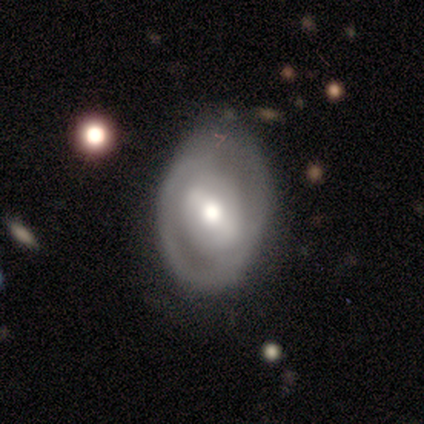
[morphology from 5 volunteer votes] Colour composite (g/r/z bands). It shows a featured or disk galaxy (80%) with a weak bar (50%), 2 (50%, tied with can't tell) tight (50%, tied with loose) spiral arms (50%, tied with no) and a moderate central bulge (75%). Merging: none (60%).